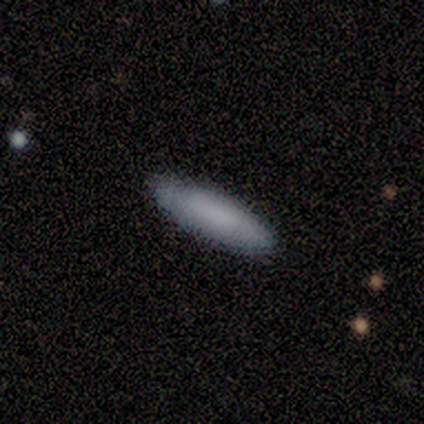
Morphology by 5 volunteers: Smooth or featured? 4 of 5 (80%) said smooth. How rounded? 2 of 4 (50%, tied with cigar-shaped) said in between. Merging? 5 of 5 (100%) said none.